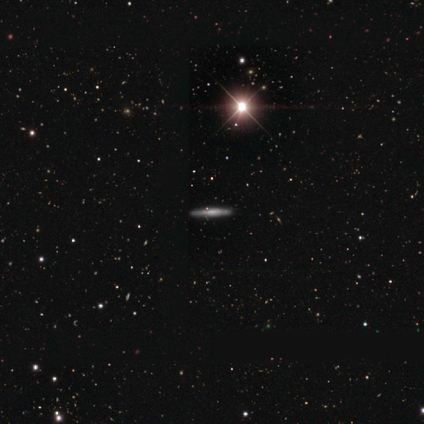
A featured or disk galaxy (60%) viewed edge-on (100%) with no central bulge (100%).

Vote fractions:
- Smooth or featured? featured or disk: 60% / star or artifact: 40% / smooth: 0%
- Edge-on disk? yes: 100% / no: 0%
- Edge-on bulge? none: 100% / boxy: 0% / rounded: 0%
- Merging? none: 100% / minor disturbance: 0% / major disturbance: 0% / merger: 0%